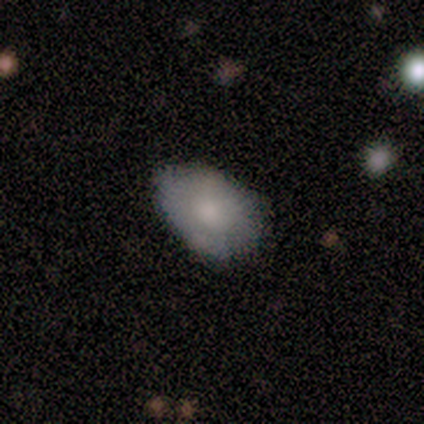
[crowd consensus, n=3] A smooth galaxy with no disk features (100%) that is in between round and cigar-shaped (100%). Merging: none (67%).